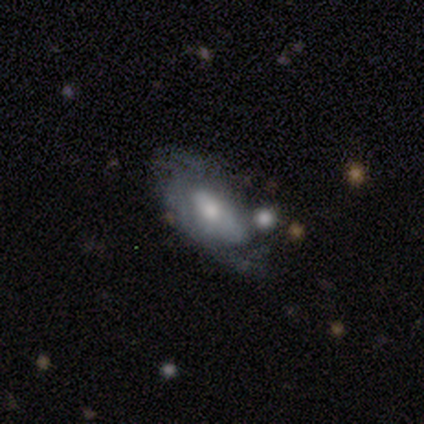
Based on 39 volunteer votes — Q: Smooth or featured?
A: featured or disk (64%); runner-up: smooth (28%)
Q: Edge-on disk?
A: no (80%); runner-up: yes (20%)
Q: Bar?
A: no (60%); runner-up: weak (40%)
Q: Spiral arms?
A: yes (65%); runner-up: no (35%)
Q: Spiral winding?
A: tight (46%); runner-up: medium (38%)
Q: Spiral arm count?
A: 2 (38%); runner-up: can't tell (31%)
Q: Bulge size?
A: moderate (70%); runner-up: small (20%)
Q: Merging?
A: minor disturbance (39%); runner-up: none (33%)